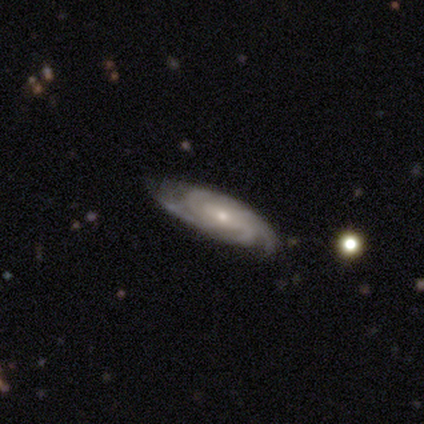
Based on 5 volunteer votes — This appears to be a featured or disk galaxy (60%) with a weak bar (50%, tied with no), tight (50%, tied with medium) spiral arms (100%) and a moderate central bulge (50%, tied with small). Merging: none (100%).